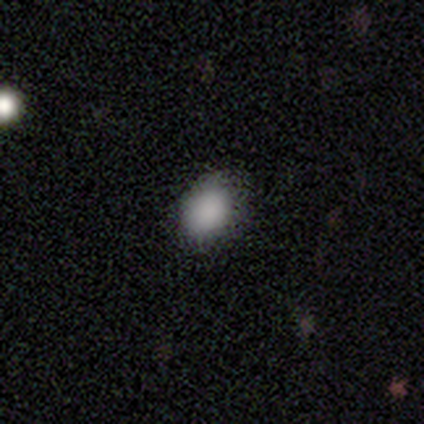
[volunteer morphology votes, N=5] Smooth or featured? smooth (80%)
How rounded? in between (100%)
Merging? none (75%)